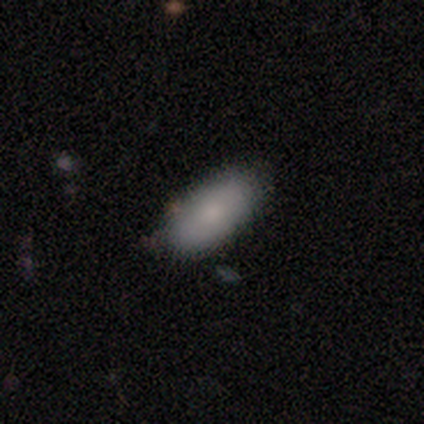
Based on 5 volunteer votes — smooth_or_featured: smooth (p=0.80) [alt: star or artifact p=0.20]
how_rounded: in between (p=0.75) [alt: cigar-shaped p=0.25]
merging: none (p=1.00)